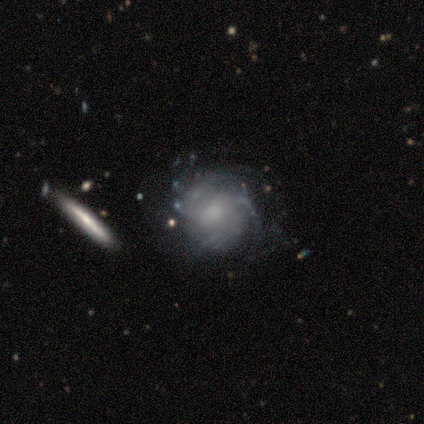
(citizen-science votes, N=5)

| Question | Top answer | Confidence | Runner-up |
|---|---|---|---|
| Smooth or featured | featured or disk | 80% | smooth (20%) |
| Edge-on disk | no | 100% | — |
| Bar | no | 75% | weak (25%) |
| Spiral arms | yes | 50% | tied: no (50%) |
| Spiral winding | tight | 50% | tied: medium (50%) |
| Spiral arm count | can't tell | 100% | — |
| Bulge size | moderate | 100% | — |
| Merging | none | 40% | tied: minor disturbance (40%) |